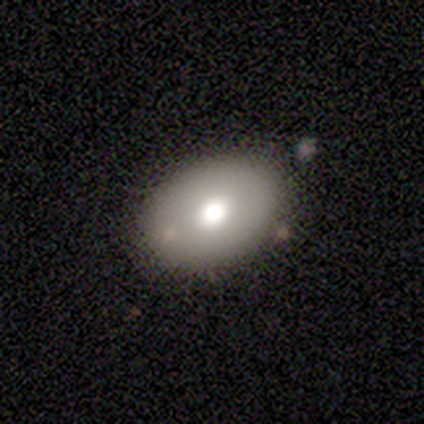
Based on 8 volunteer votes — smooth_or_featured: smooth (p=0.62) [alt: featured or disk p=0.25]
how_rounded: in between (p=1.00)
merging: none (p=0.86) [alt: minor disturbance p=0.14]